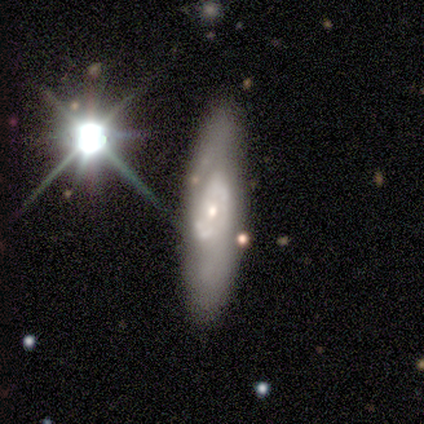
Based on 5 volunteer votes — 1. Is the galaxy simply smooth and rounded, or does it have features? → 60% featured or disk, 20% smooth, 20% star or artifact.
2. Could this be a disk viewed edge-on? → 67% no, 33% yes.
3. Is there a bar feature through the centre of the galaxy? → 100% weak, 0% strong, 0% no.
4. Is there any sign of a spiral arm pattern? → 100% yes, 0% no.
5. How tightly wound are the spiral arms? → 50% tight (tied), 50% loose (tied), 0% medium.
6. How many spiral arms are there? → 50% 1 (tied), 50% can't tell (tied), 0% 2, 0% 3, 0% 4, 0% more than 4.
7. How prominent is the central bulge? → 50% moderate (tied), 50% small (tied), 0% dominant, 0% large, 0% none.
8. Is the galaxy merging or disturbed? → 75% none, 25% minor disturbance, 0% major disturbance, 0% merger.